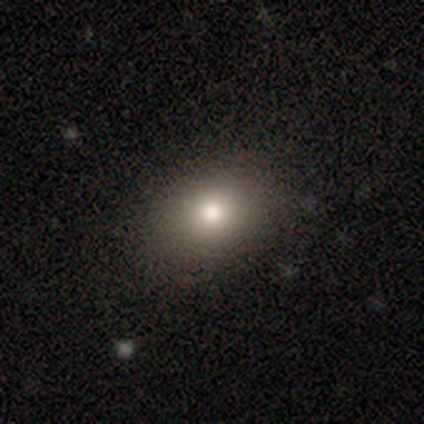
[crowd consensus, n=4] smooth-or-featured: smooth: 100% | featured or disk: 0% | star or artifact: 0%
  how-rounded: in between: 100% | round: 0% | cigar-shaped: 0%
  merging: none: 100% | minor disturbance: 0% | major disturbance: 0% | merger: 0%